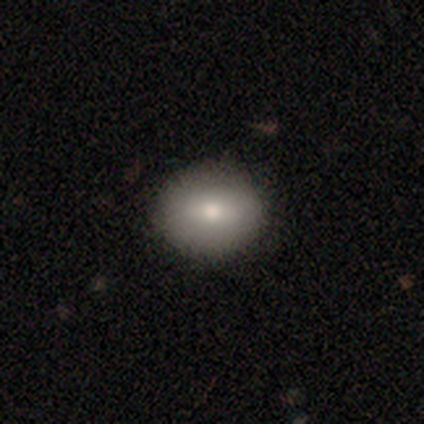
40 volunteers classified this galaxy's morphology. smooth-or-featured: smooth: 82% | featured or disk: 15% | star or artifact: 2%
  how-rounded: round: 55% | in between: 42% | cigar-shaped: 3%
  merging: none: 90% | minor disturbance: 5% | major disturbance: 5% | merger: 0%